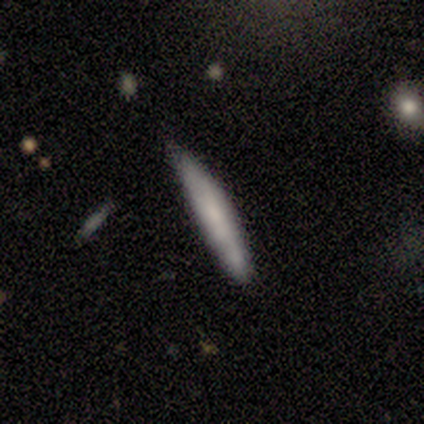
smooth 80%, featured or disk 20%, star or artifact 0%. Down the decision tree: how rounded — cigar-shaped (100%); merging — none (40%, tied with minor disturbance).